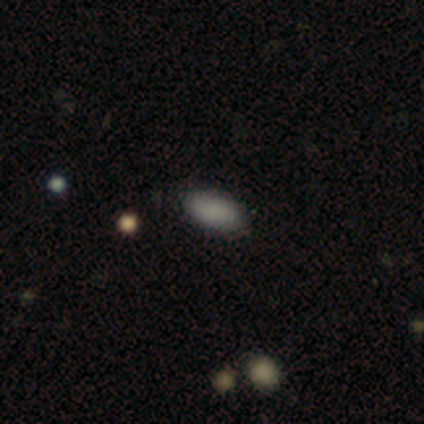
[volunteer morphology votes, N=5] Smooth or featured?
  - smooth: 100% *
  - featured or disk: 0%
  - star or artifact: 0%
How rounded?
  - in between: 100% *
  - round: 0%
  - cigar-shaped: 0%
Merging?
  - none: 100% *
  - minor disturbance: 0%
  - major disturbance: 0%
  - merger: 0%